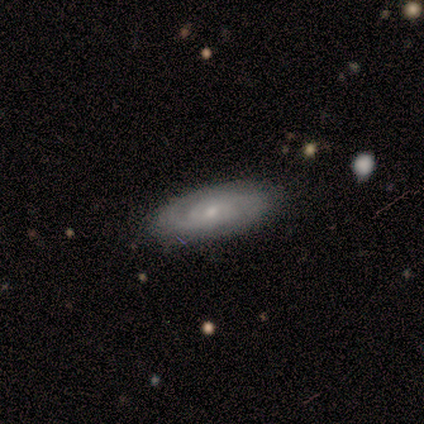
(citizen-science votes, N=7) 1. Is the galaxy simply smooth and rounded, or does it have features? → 57% featured or disk, 29% smooth, 14% star or artifact.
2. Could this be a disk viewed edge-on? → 100% no, 0% yes.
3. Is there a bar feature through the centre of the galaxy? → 100% weak, 0% strong, 0% no.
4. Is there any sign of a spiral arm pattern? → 100% yes, 0% no.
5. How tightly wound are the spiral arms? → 75% tight, 25% medium, 0% loose.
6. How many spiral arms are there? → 50% can't tell, 25% 2, 25% 3, 0% 1, 0% 4, 0% more than 4.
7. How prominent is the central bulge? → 100% small, 0% dominant, 0% large, 0% moderate, 0% none.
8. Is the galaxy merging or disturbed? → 83% none, 17% minor disturbance, 0% major disturbance, 0% merger.